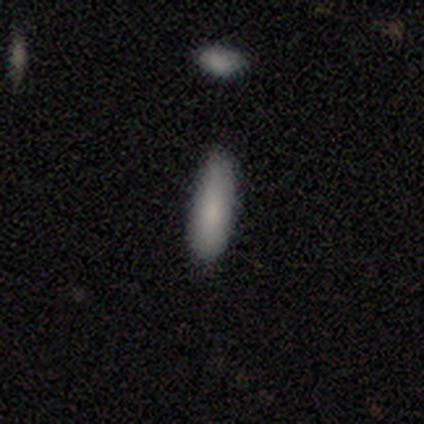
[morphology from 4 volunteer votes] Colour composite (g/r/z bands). It shows a smooth galaxy with no disk features (75%) that is in between round and cigar-shaped (100%). Merging: none (100%).